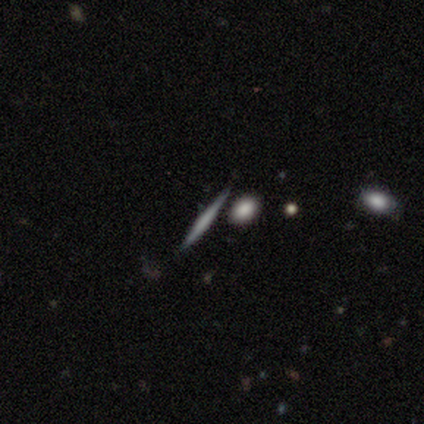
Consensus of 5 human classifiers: Smooth or featured: smooth — 60% (featured or disk — 40%)
How rounded: cigar-shaped — 100%
Merging: none — 80% (minor disturbance — 20%)